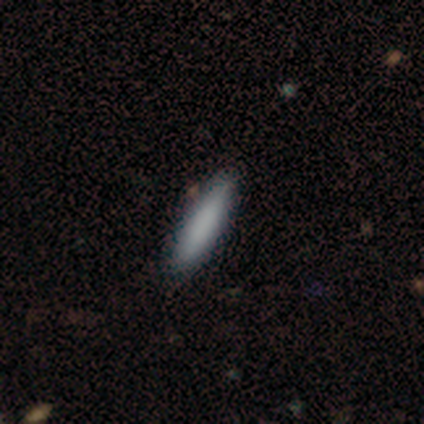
Morphology: type=smooth (88%); roundness=cigar-shaped (77%); merging=none (84%).